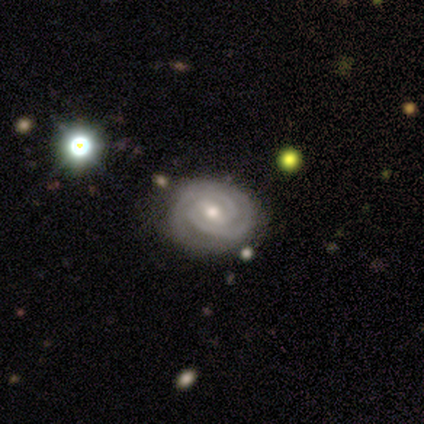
This is clearly a featured or disk galaxy (100%). It is clearly not viewed edge-on (100%). Bar: likely weak (60%). Spiral arm pattern: clearly yes (100%). Spiral arm count: likely 2 (60%). Spiral winding: clearly tight (80%). Central bulge: clearly moderate (80%). Merging: clearly none (100%).